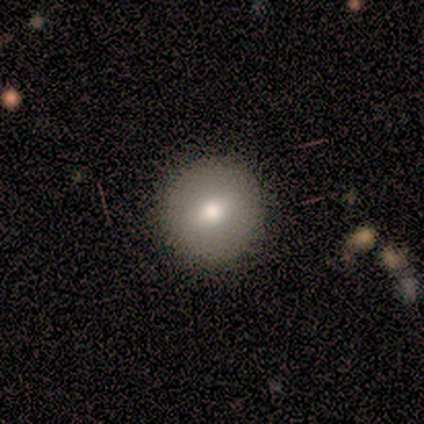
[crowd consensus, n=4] Smooth or featured? smooth (100%)
How rounded? round (100%)
Merging? none (100%)